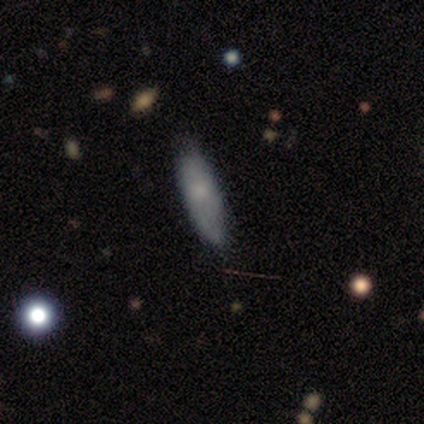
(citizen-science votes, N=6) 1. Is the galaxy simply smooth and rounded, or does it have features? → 83% smooth, 17% featured or disk, 0% star or artifact.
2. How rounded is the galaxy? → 60% cigar-shaped, 40% in between, 0% round.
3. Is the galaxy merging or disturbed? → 100% none, 0% minor disturbance, 0% major disturbance, 0% merger.